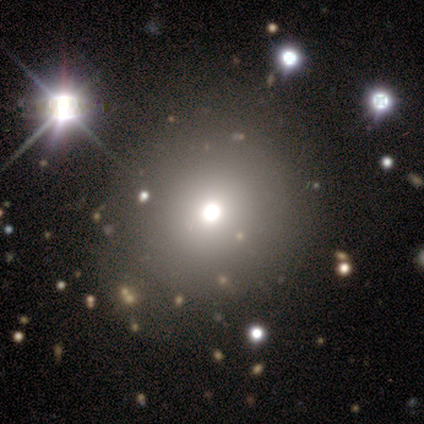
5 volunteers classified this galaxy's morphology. Volunteers were most divided on "smooth or featured": smooth: 80%, featured or disk: 20%, star or artifact: 0%. More confident: how rounded — round (100%); merging — none (80%).